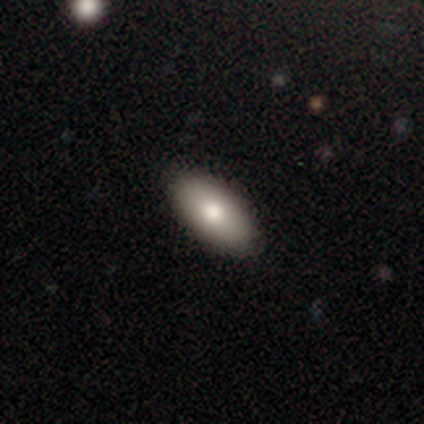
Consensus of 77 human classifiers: Overall: smooth (70%). How rounded: in between (94%). Merging: none (44%).